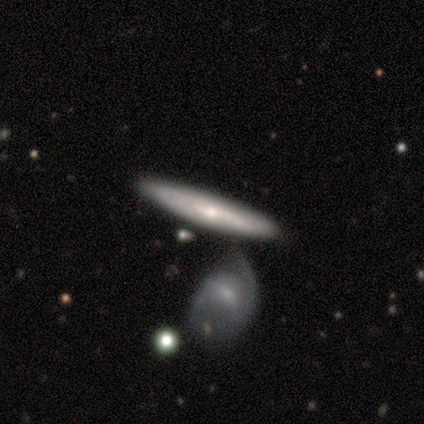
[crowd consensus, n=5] A featured or disk galaxy (100%) viewed edge-on (80%) with no central bulge (50%, tied with rounded).

Vote fractions:
- Smooth or featured? featured or disk: 100% / smooth: 0% / star or artifact: 0%
- Edge-on disk? yes: 80% / no: 20%
- Edge-on bulge? none: 50% (tied) / rounded: 50% (tied) / boxy: 0%
- Merging? none: 60% / merger: 40% / minor disturbance: 0% / major disturbance: 0%